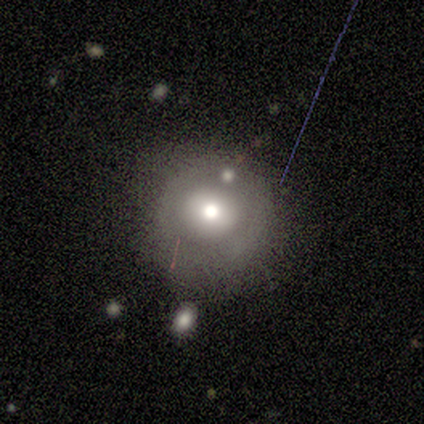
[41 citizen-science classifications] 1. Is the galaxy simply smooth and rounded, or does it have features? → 54% smooth, 37% featured or disk, 10% star or artifact.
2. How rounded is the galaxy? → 91% round, 5% in between, 5% cigar-shaped.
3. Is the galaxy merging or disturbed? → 51% none, 24% minor disturbance, 14% major disturbance, 11% merger.